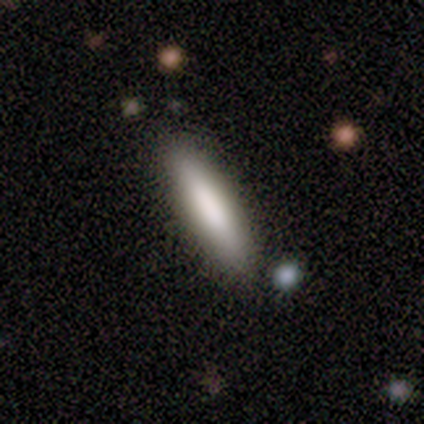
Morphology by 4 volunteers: Smooth or featured? 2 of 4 (50%, tied with featured or disk) said smooth. How rounded? 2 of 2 (100%) said in between. Merging? 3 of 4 (75%) said none.